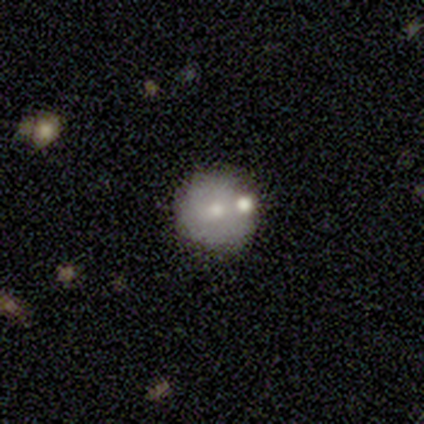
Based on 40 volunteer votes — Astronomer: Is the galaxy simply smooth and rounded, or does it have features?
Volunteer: smooth — 57% (runner-up: featured or disk, 32%).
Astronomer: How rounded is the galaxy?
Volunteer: round — 96%.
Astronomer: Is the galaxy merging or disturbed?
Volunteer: none — 69%.